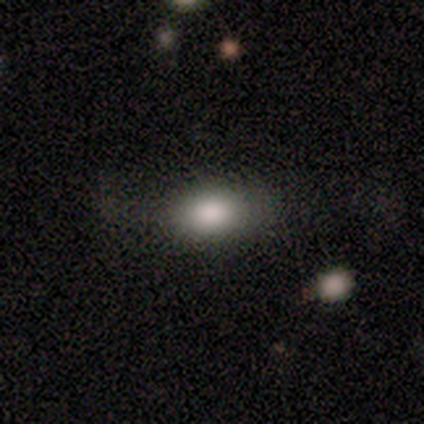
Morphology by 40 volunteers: Smooth or featured? smooth (82%)
How rounded? in between (85%)
Merging? none (63%)